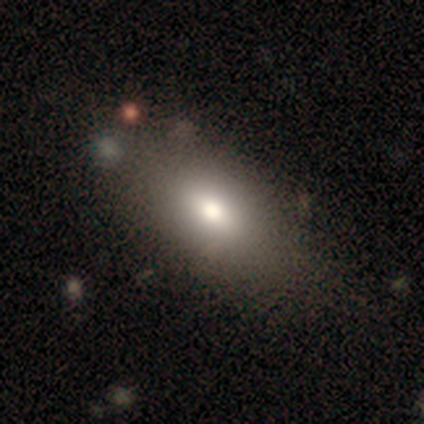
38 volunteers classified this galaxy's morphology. Smooth or featured: smooth — 74% (featured or disk — 21%)
How rounded: in between — 89% (cigar-shaped — 11%)
Merging: none — 64% (merger — 8%)